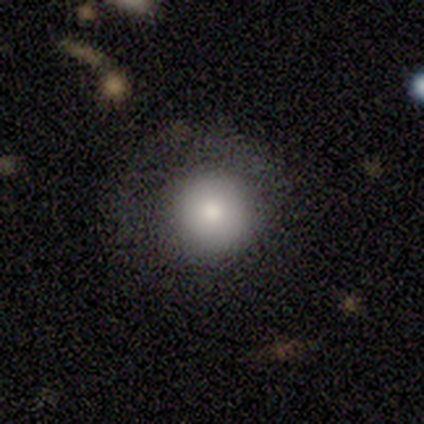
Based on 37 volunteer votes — Morphology: type=smooth (81%); roundness=round (97%); merging=none (78%).